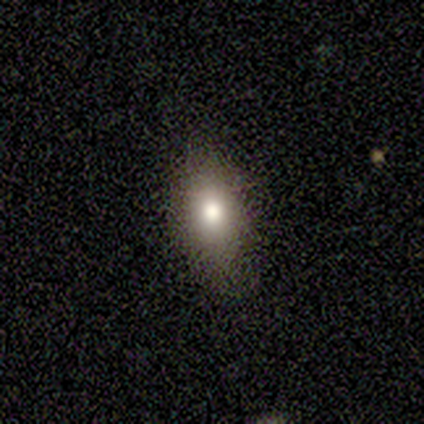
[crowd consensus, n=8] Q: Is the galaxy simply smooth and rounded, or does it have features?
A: smooth — 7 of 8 (88%).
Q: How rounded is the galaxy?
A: in between — 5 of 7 (71%).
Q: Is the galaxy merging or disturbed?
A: none — 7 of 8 (88%).